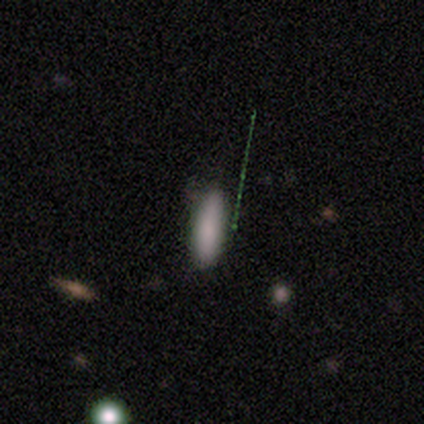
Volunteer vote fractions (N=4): Overall: smooth (75%). How rounded: cigar-shaped (67%; in between 33%). Merging: none (100%).